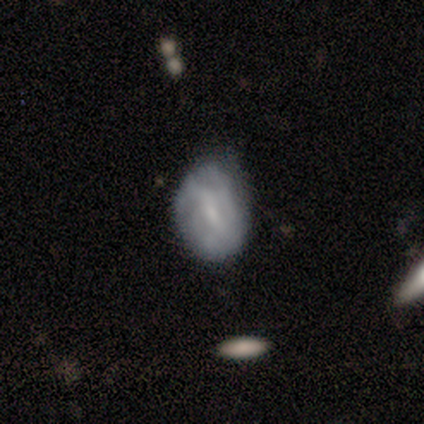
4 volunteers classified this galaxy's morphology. featured or disk 50%, smooth 25%, star or artifact 25%. Down the decision tree: edge-on disk — no (100%); bar — weak (100%); spiral arms — yes (100%); spiral arm count — 3 (50%, tied with can't tell); spiral winding — tight (50%, tied with medium); bulge size — small (50%, tied with none); merging — minor disturbance (67%).